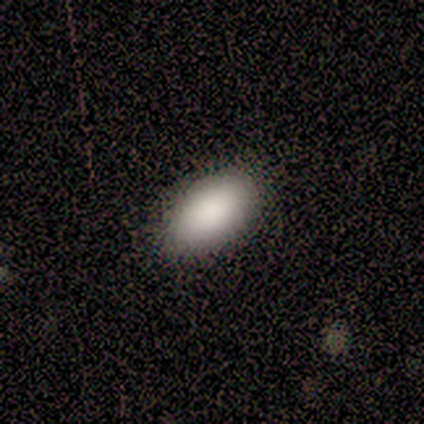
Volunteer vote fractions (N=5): Consensus on every question: smooth or featured — smooth (100%); how rounded — in between (100%); merging — none (100%).